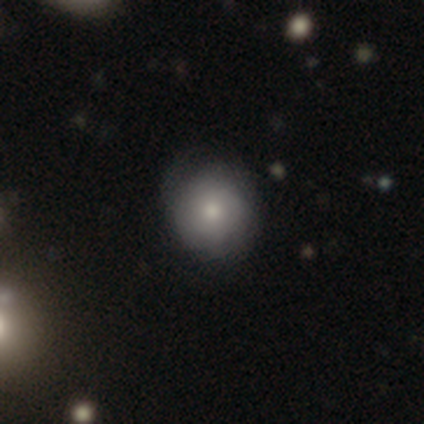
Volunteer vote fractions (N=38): Smooth or featured? smooth (76%)
How rounded? round (83%)
Merging? none (67%)